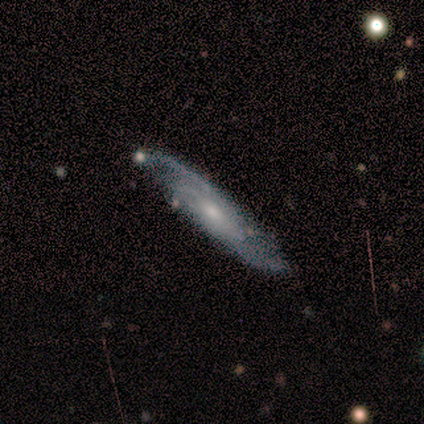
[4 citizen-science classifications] Volunteers were most divided on "edge-on disk" (2-way tie): yes: 50%, no: 50%; "edge-on bulge" (2-way tie): none: 50%, rounded: 50%, boxy: 0%. More confident: smooth or featured — featured or disk (100%); merging — none (100%).